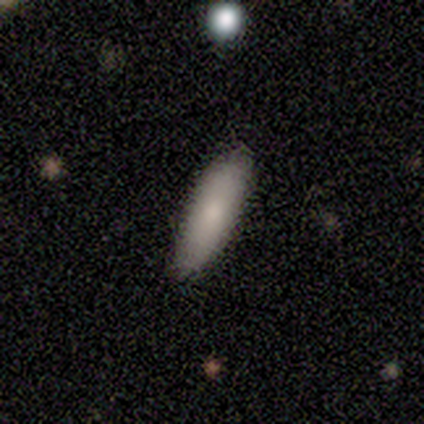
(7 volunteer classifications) Smooth or featured? smooth (71%)
How rounded? cigar-shaped (60%)
Merging? none (83%)